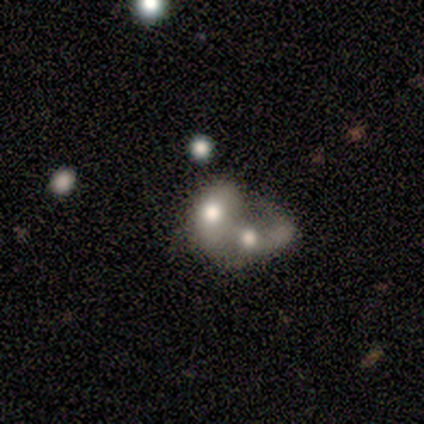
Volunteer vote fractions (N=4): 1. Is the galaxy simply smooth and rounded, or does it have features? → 50% featured or disk, 25% smooth, 25% star or artifact.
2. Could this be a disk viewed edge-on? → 100% no, 0% yes.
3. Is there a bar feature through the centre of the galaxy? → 100% no, 0% strong, 0% weak.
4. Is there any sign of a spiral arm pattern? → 100% no, 0% yes.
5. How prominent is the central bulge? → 50% large (tied), 50% moderate (tied), 0% dominant, 0% small, 0% none.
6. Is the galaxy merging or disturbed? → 67% merger, 33% minor disturbance, 0% none, 0% major disturbance.